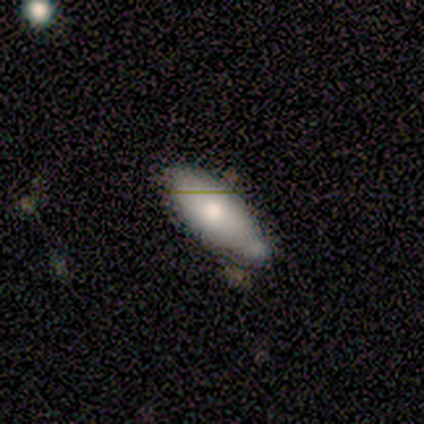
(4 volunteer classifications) Q: Smooth or featured?
A: smooth (100%)
Q: How rounded?
A: in between (100%)
Q: Merging?
A: none (75%); runner-up: minor disturbance (25%)